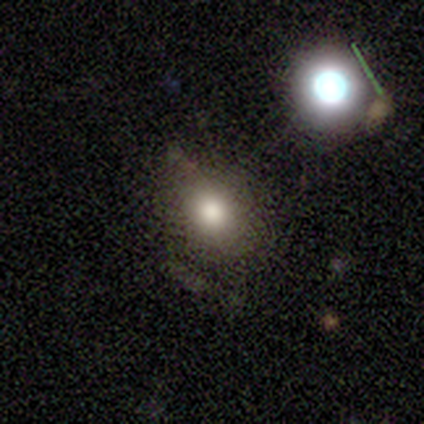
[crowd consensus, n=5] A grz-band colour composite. It shows a smooth galaxy with no disk features (80%) that is in between round and cigar-shaped (100%). Merging: none (60%).